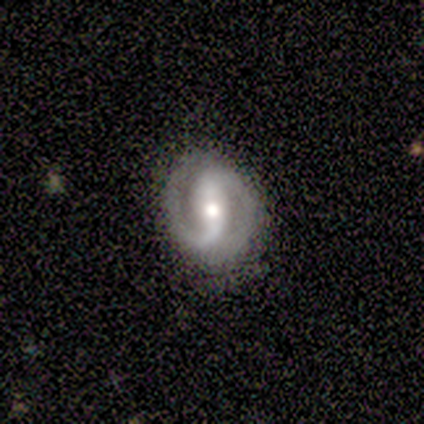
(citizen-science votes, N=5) Smooth or featured: featured or disk — 100%
Edge-on disk: no — 100%
Bar: strong — 60% (weak — 20%)
Spiral arms: yes — 80% (no — 20%)
Spiral winding: medium — 50% (tied with loose — 50%)
Spiral arm count: 2 — 100%
Bulge size: moderate — 60% (large — 20%)
Merging: none — 40% (tied with minor disturbance — 40%)